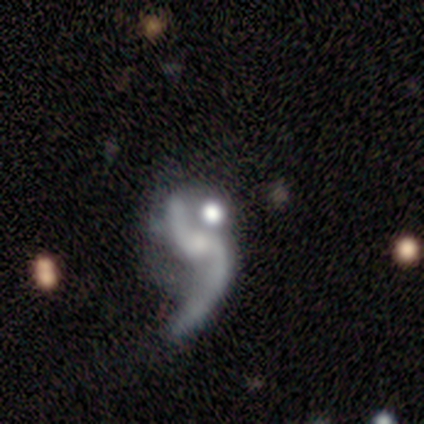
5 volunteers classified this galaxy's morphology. Overall: featured or disk (80%). Edge-on disk: no (100%). Bar: no (75%). Spiral arms: yes (75%). Spiral arm count: 2 (67%; can't tell 33%). Spiral winding: loose (67%; medium 33%). Bulge size: none (50%; moderate 25%). Merging: major disturbance (50%; minor disturbance 25%).